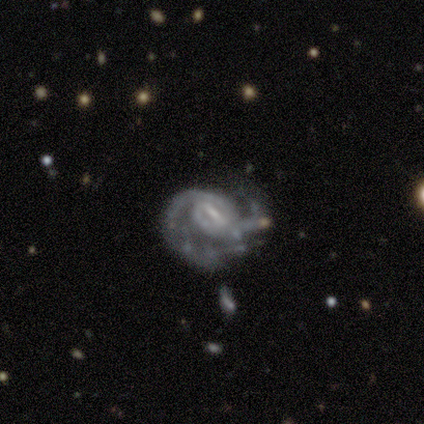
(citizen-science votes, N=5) A featured or disk galaxy (80%) with a strong bar (33%, tied with weak and no), 2 (50%, tied with can't tell) medium (100%) spiral arms (67%) and a dominant central bulge (33%, tied with moderate and none). Merging: minor disturbance (60%).